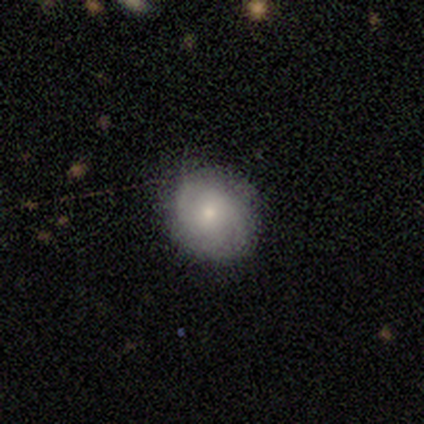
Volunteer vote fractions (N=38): This is possibly a smooth galaxy (50%). How rounded: clearly round (89%). Merging: clearly none (86%).